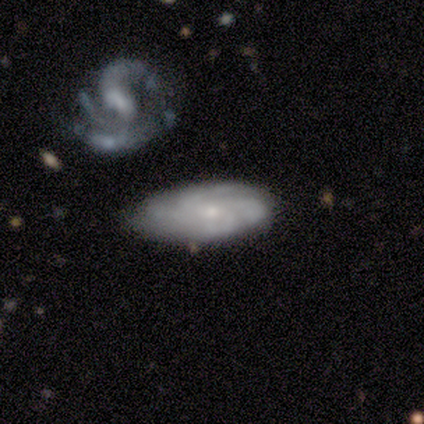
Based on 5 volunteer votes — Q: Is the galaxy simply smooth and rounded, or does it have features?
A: featured or disk — 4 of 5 (80%).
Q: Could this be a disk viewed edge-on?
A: no — 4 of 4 (100%).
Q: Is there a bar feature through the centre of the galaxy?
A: weak — 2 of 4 (50%, tied with no).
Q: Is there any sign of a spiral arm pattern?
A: yes — 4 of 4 (100%).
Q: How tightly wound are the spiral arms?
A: tight — 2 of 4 (50%, tied with medium).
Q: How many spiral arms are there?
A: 4 — 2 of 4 (50%).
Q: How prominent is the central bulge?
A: small — 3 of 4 (75%).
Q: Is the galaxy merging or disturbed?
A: none — 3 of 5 (60%).